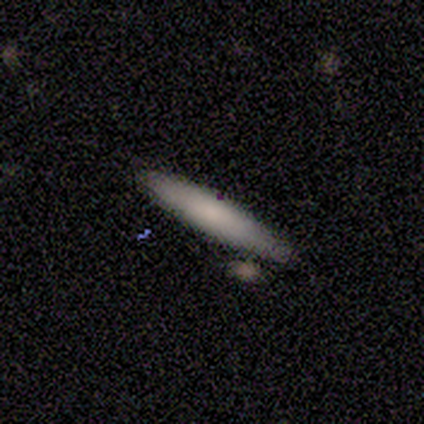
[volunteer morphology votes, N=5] Smooth or featured? smooth (80%)
How rounded? cigar-shaped (100%)
Merging? none (100%)